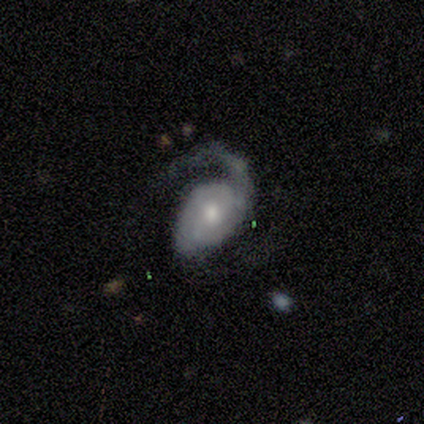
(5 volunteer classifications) This appears to be a featured or disk galaxy (100%) with no bar (80%), 2 (80%) loose (60%) spiral arms (100%) and a moderate central bulge (80%). Merging: none (40%, tied with major disturbance).